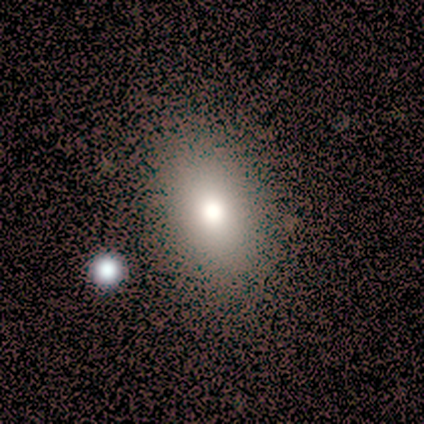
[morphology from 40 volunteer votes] Smooth or featured? smooth (82%)
How rounded? in between (85%)
Merging? none (53%)